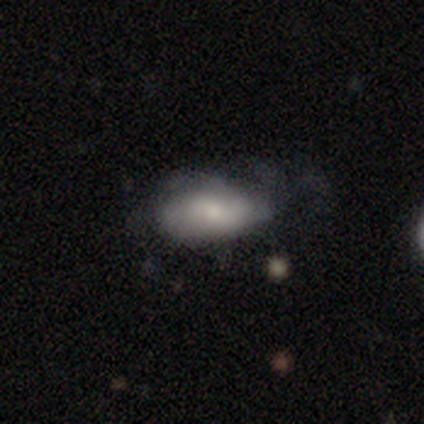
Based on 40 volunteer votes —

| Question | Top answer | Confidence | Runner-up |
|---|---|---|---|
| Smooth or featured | smooth | 52% | featured or disk (42%) |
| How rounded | in between | 90% | round (5%) |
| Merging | none | 39% | minor disturbance (34%) |